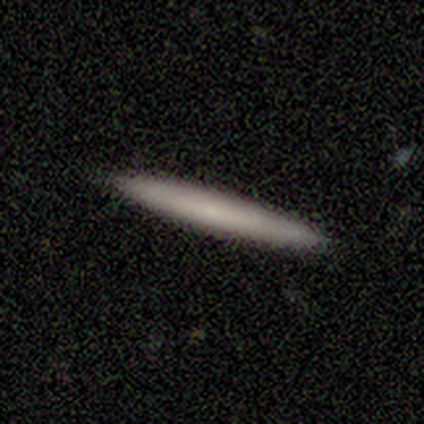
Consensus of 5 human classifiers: A featured or disk galaxy (60%) viewed edge-on (100%) with no central bulge (100%). Merging: none (75%).